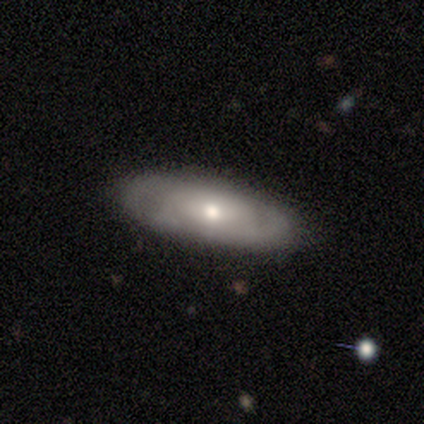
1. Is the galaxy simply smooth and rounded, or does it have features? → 80% featured or disk, 20% smooth, 0% star or artifact.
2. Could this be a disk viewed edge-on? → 100% no, 0% yes.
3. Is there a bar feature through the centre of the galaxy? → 50% weak, 25% strong, 25% no.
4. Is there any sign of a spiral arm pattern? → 75% yes, 25% no.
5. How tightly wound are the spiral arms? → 100% tight, 0% medium, 0% loose.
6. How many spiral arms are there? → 33% 3 (tied), 33% 4 (tied), 33% can't tell (tied), 0% 1, 0% 2, 0% more than 4.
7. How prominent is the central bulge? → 75% moderate, 25% small, 0% dominant, 0% large, 0% none.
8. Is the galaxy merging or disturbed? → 100% none, 0% minor disturbance, 0% major disturbance, 0% merger.